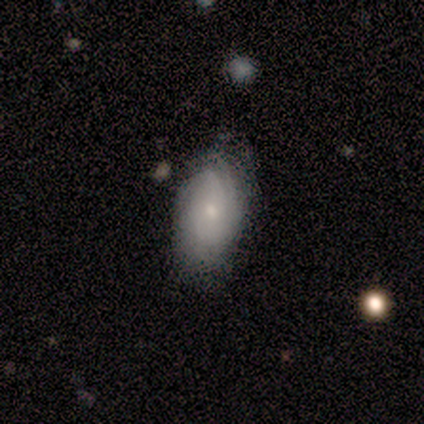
Morphology: type=featured or disk (80%); edge-on=no (100%); bar=weak (50%, tied with no); spiral arms=yes (100%); winding=tight (50%, tied with medium); arm count=can't tell (50%); bulge=small (100%); merging=none (80%).